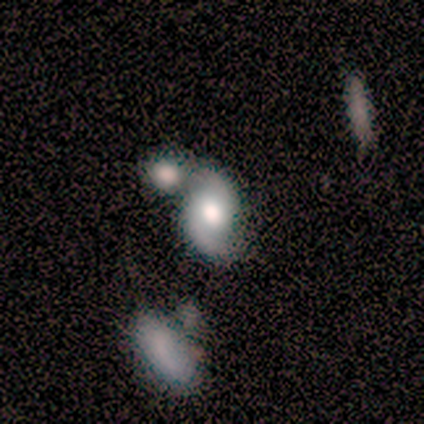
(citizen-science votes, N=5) Morphology: type=featured or disk (80%); edge-on=no (100%); bar=no (100%); spiral arms=yes (100%); winding=loose (100%); arm count=2 (100%); bulge=moderate (75%); merging=merger (80%).